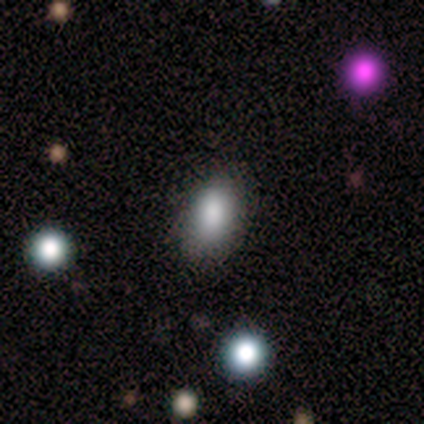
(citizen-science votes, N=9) Morphology: type=smooth (78%); roundness=in between (86%); merging=none (88%).